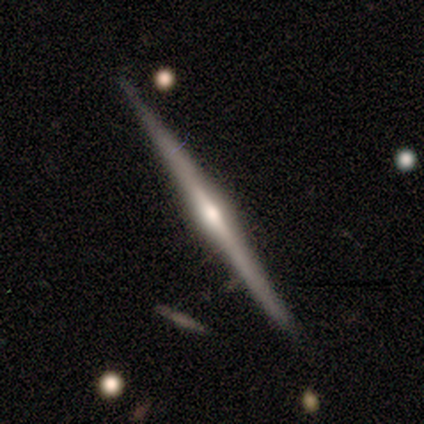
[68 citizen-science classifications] This is clearly a featured or disk galaxy (90%). It is clearly viewed edge-on (98%). Edge-on bulge: clearly rounded (83%). Merging: clearly none (88%).